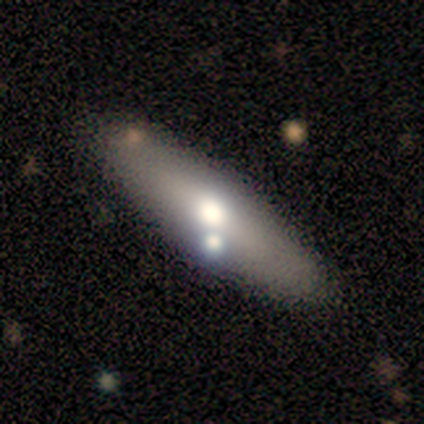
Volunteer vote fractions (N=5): smooth-or-featured: smooth: 80% | featured or disk: 20% | star or artifact: 0%
  how-rounded: cigar-shaped: 75% | in between: 25% | round: 0%
  merging: none: 80% | minor disturbance: 20% | major disturbance: 0% | merger: 0%